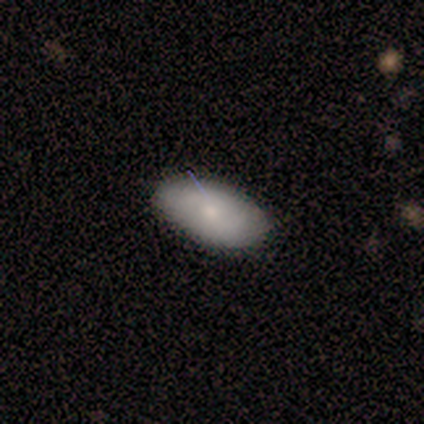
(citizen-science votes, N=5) Volunteers were most divided on "smooth or featured": smooth: 60%, featured or disk: 40%, star or artifact: 0%. More confident: merging — none (100%); how rounded — round (67%).